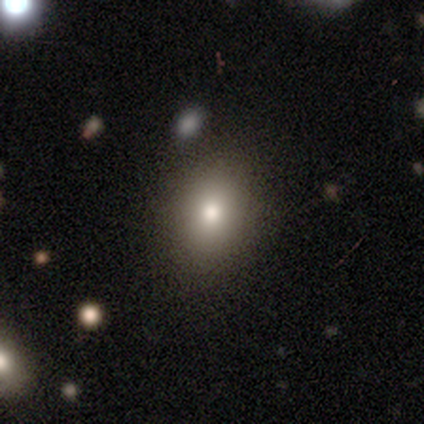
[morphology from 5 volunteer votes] smooth 100%, featured or disk 0%, star or artifact 0%. Down the decision tree: how rounded — in between (60%); merging — none (100%).